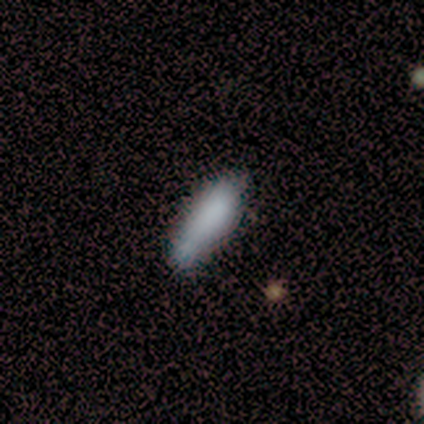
Smooth or featured? smooth (75%)
How rounded? in between (100%)
Merging? major disturbance (50%)